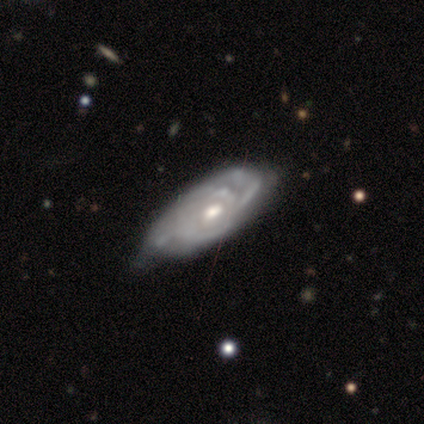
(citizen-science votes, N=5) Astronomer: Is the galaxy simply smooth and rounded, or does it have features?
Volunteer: featured or disk — 100%.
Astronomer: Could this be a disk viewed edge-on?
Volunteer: no — 80%.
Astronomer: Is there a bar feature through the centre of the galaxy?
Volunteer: weak — 50%, tied with no at 50%.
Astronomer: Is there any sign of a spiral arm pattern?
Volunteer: yes — 100%.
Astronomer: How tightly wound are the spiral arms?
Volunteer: tight — 100%.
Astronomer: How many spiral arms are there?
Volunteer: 2 — 75%.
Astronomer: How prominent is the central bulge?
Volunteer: moderate — 100%.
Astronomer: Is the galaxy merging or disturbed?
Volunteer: none — 40%, tied with minor disturbance at 40%.